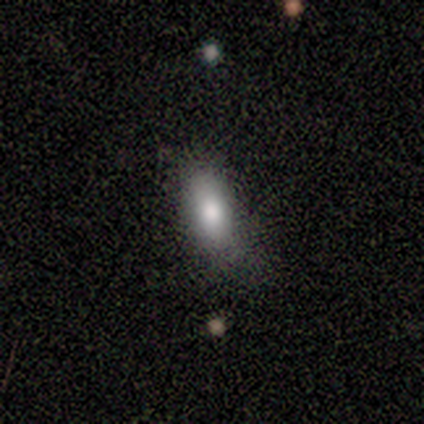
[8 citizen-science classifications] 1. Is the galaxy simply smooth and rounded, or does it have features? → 100% smooth, 0% featured or disk, 0% star or artifact.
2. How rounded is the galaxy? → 88% in between, 12% round, 0% cigar-shaped.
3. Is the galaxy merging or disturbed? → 75% none, 25% minor disturbance, 0% major disturbance, 0% merger.